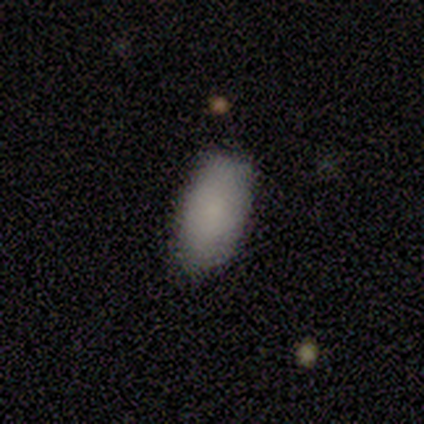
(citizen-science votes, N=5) A smooth galaxy with no disk features (100%) that is in between round and cigar-shaped (80%).

Vote fractions:
- Smooth or featured? smooth: 100% / featured or disk: 0% / star or artifact: 0%
- How rounded? in between: 80% / round: 20% / cigar-shaped: 0%
- Merging? none: 80% / minor disturbance: 20% / major disturbance: 0% / merger: 0%